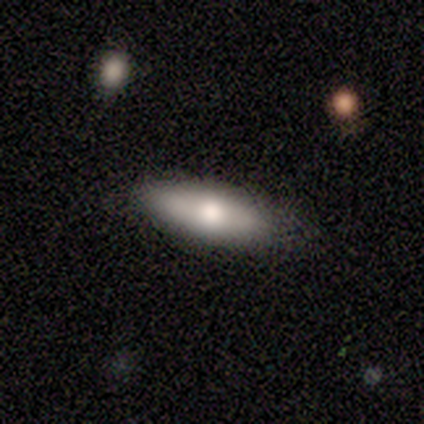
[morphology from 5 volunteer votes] smooth 60%, featured or disk 40%, star or artifact 0%. Down the decision tree: how rounded — in between (67%); merging — none (100%).